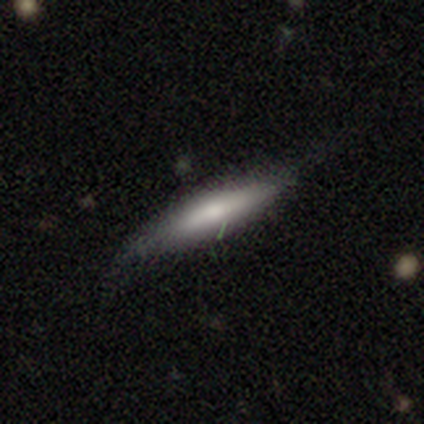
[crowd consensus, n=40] smooth 52%, featured or disk 48%, star or artifact 0%. Down the decision tree: how rounded — cigar-shaped (90%); merging — none (32%).